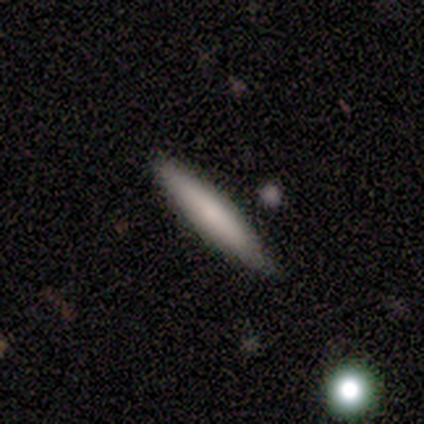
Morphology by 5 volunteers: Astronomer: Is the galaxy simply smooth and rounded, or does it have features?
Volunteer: smooth — 80%.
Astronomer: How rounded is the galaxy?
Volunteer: cigar-shaped — 100%.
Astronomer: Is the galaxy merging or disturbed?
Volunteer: none — 100%.